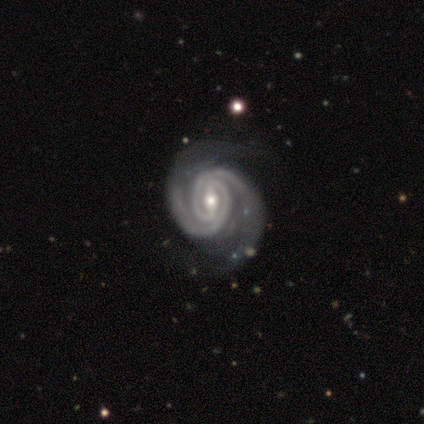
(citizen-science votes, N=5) This is clearly a featured or disk galaxy (100%). It is clearly not viewed edge-on (100%). Bar: clearly strong (80%). Spiral arm pattern: clearly yes (100%). Spiral arm count: clearly 2 (100%). Spiral winding: likely medium (60%). Central bulge: likely moderate (60%). Merging: clearly none (80%).